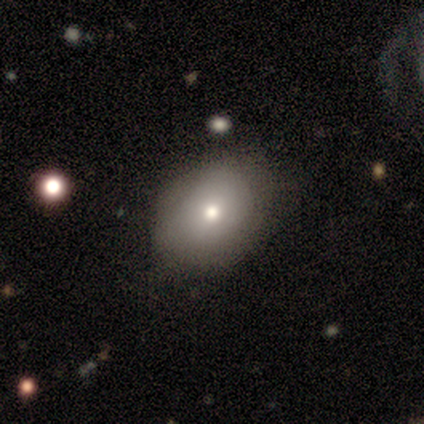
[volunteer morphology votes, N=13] Smooth or featured? smooth (62%)
How rounded? in between (62%)
Merging? none (90%)